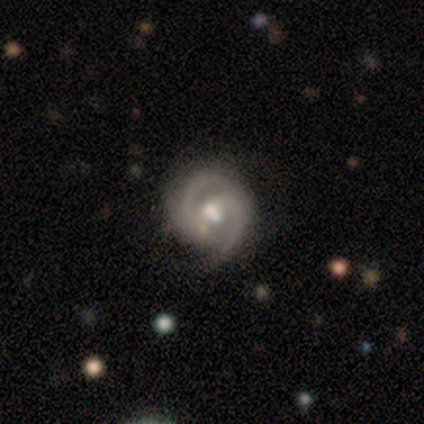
Overall: featured or disk (92%). Edge-on disk: no (97%). Bar: weak (40%, tied with no). Spiral arms: yes (97%). Spiral arm count: 2 (85%). Spiral winding: medium (65%; tight 32%). Bulge size: moderate (71%). Merging: none (61%).